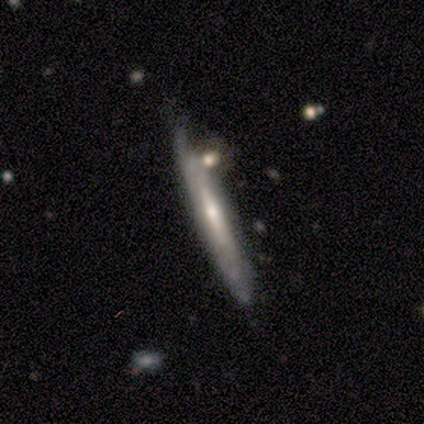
Smooth or featured?
  - smooth: 50% * (tied)
  - featured or disk: 50% * (tied)
  - star or artifact: 0%
How rounded?
  - cigar-shaped: 100% *
  - round: 0%
  - in between: 0%
Merging?
  - none: 75% *
  - merger: 25%
  - minor disturbance: 0%
  - major disturbance: 0%